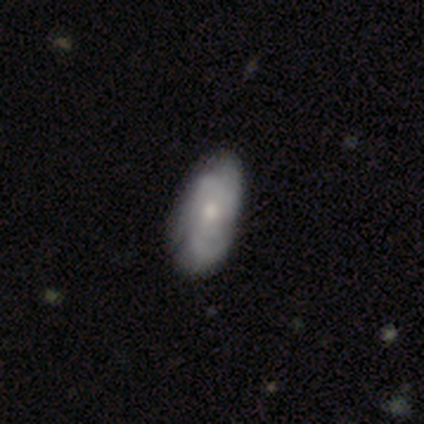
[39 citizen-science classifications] Volunteers were most divided on "bulge size": moderate: 52%, small: 48%, dominant: 0%, large: 0%, none: 0%. Remaining: edge-on disk — no (96%); spiral arms — yes (91%); bar — no (74%); merging — none (69%); smooth or featured — featured or disk (62%); spiral winding — tight (52%); spiral arm count — 2 (43%).